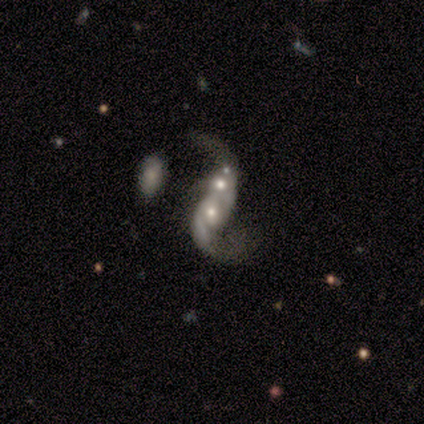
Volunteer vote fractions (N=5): smooth-or-featured: featured or disk: 100% | smooth: 0% | star or artifact: 0%
  disk-edge-on: no: 100% | yes: 0%
    bar: no: 80% | weak: 20% | strong: 0%
    has-spiral-arms: yes: 80% | no: 20%
      spiral-winding: loose: 100% | tight: 0% | medium: 0%
      spiral-arm-count: 2: 75% | 3: 25% | 1: 0% | 4: 0% | more than 4: 0% | can't tell: 0%
    bulge-size: large: 40% (tied) | moderate: 40% (tied) | none: 20% | dominant: 0% | small: 0%
  merging: merger: 60% | none: 20% | major disturbance: 20% | minor disturbance: 0%